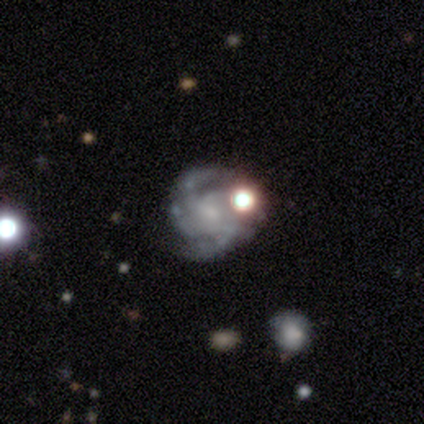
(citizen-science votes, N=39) Smooth or featured?
  - featured or disk: 85% *
  - star or artifact: 13%
  - smooth: 3%
Edge-on disk?
  - no: 100% *
  - yes: 0%
Bar?
  - no: 67% *
  - weak: 30%
  - strong: 3%
Spiral arms?
  - yes: 97% *
  - no: 3%
Spiral winding?
  - tight: 50% *
  - medium: 38%
  - loose: 12%
Spiral arm count?
  - 4: 44% *
  - 2: 22%
  - 3: 16%
  - can't tell: 16%
  - more than 4: 3%
  - 1: 0%
Bulge size?
  - small: 52% *
  - none: 30%
  - moderate: 15%
  - dominant: 3%
  - large: 0%
Merging?
  - none: 56% *
  - minor disturbance: 26%
  - merger: 18%
  - major disturbance: 0%